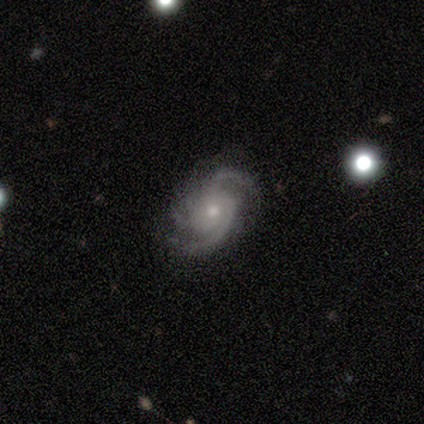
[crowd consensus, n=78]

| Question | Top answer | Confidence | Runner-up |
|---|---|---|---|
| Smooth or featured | featured or disk | 97% | smooth (1%) |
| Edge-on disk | no | 99% | yes (1%) |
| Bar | no | 81% | weak (16%) |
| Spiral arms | yes | 99% | no (1%) |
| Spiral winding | medium | 58% | tight (24%) |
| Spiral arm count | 2 | 39% | tied: 3 (39%) |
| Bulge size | small | 56% | moderate (39%) |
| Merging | none | 39% | minor disturbance (13%) |